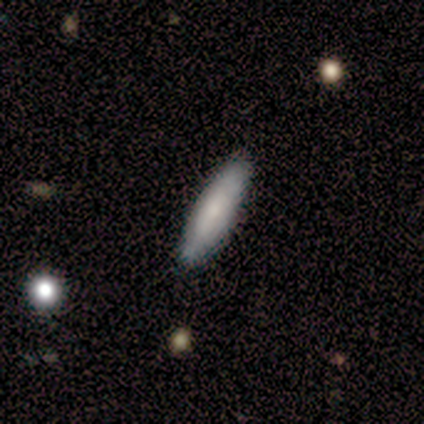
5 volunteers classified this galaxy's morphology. Volunteers were most divided on "how rounded": cigar-shaped: 80%, in between: 20%, round: 0%. More confident: smooth or featured — smooth (100%); merging — none (80%).